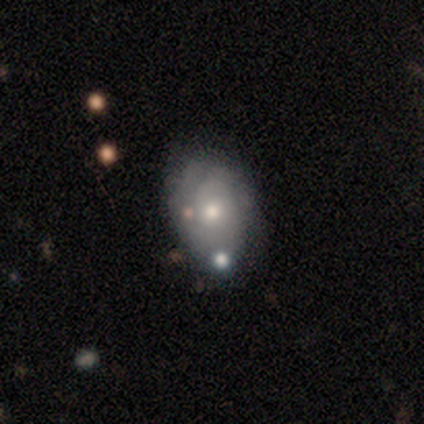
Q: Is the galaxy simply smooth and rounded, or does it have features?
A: featured or disk — 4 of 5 (80%).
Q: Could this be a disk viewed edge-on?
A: no — 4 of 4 (100%).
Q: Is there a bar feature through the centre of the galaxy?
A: no — 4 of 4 (100%).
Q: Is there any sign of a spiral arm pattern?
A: yes — 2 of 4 (50%, tied with no).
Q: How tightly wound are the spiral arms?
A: tight — 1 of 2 (50%, tied with medium).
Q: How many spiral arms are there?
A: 2 — 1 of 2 (50%, tied with can't tell).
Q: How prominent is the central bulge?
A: moderate — 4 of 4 (100%).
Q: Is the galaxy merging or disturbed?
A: minor disturbance — 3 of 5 (60%).